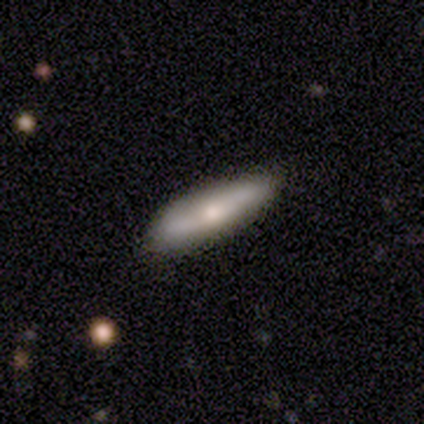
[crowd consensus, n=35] A smooth galaxy with no disk features (54%) that is cigar-shaped (74%). Merging: none (94%).